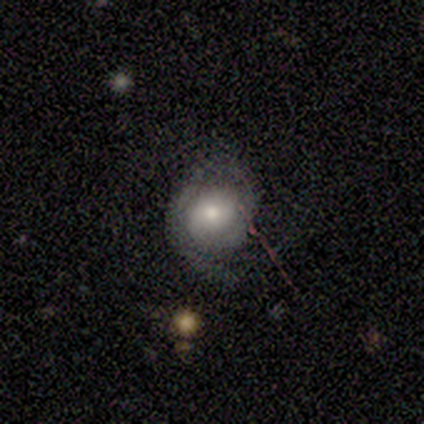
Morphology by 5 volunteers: Smooth or featured? 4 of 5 (80%) said featured or disk. Edge-on disk? 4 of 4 (100%) said no. Bar? 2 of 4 (50%, tied with no) said weak. Spiral arms? 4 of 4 (100%) said yes. Spiral winding? 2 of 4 (50%, tied with medium) said tight. Spiral arm count? 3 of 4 (75%) said 1. Bulge size? 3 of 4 (75%) said large. Merging? 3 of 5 (60%) said none.